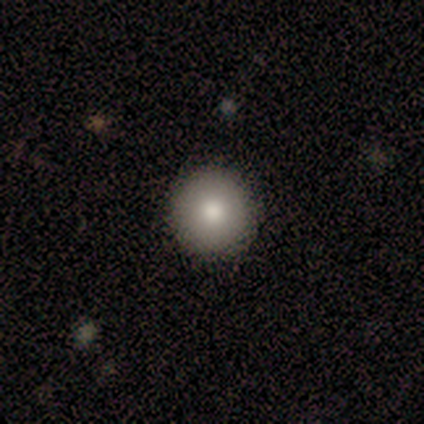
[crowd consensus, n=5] A smooth galaxy with no disk features (100%) that is round (100%).

Vote fractions:
- Smooth or featured? smooth: 100% / featured or disk: 0% / star or artifact: 0%
- How rounded? round: 100% / in between: 0% / cigar-shaped: 0%
- Merging? none: 80% / minor disturbance: 20% / major disturbance: 0% / merger: 0%